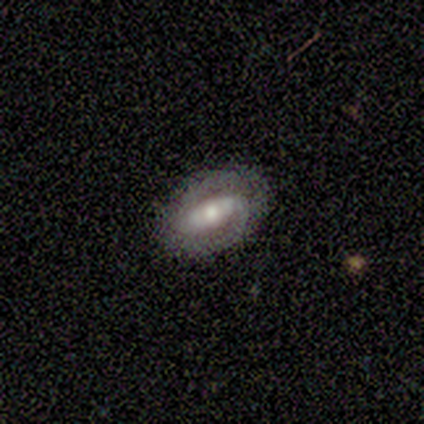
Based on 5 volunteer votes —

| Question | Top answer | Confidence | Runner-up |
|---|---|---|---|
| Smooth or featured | featured or disk | 100% | — |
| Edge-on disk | no | 100% | — |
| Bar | strong | 60% | weak (40%) |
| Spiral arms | yes | 60% | no (40%) |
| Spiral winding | tight | 33% | tied: medium (33%), loose (33%) |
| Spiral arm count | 2 | 100% | — |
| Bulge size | moderate | 60% | large (20%) |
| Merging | none | 100% | — |